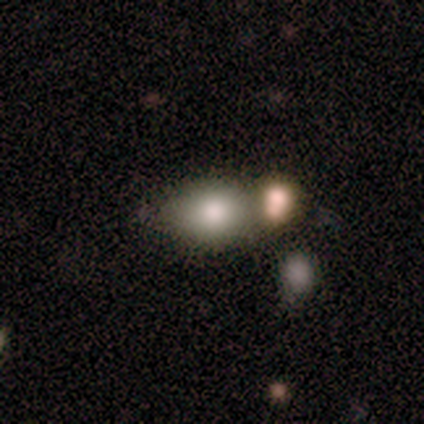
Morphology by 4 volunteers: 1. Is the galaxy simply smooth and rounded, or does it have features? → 100% smooth, 0% featured or disk, 0% star or artifact.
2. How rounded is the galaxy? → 75% round, 25% in between, 0% cigar-shaped.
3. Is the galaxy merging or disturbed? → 75% none, 25% merger, 0% minor disturbance, 0% major disturbance.